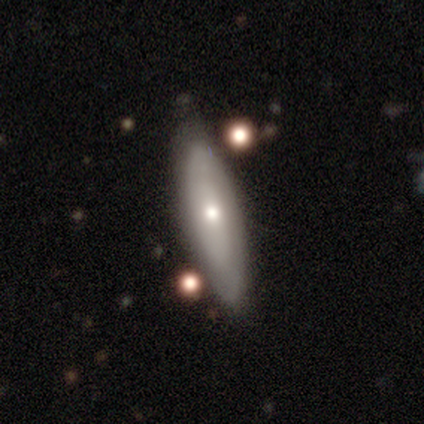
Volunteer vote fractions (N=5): Overall: smooth (80%). How rounded: in between (50%, tied with cigar-shaped). Merging: none (60%; minor disturbance 40%).